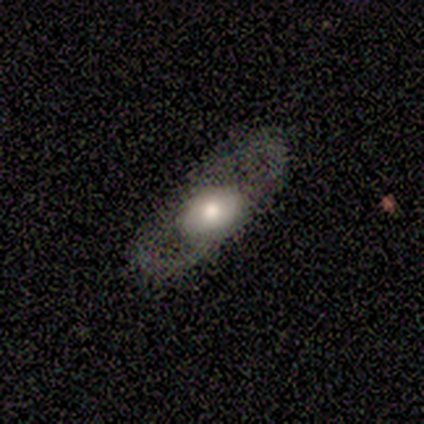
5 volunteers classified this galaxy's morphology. smooth 40% (tied), featured or disk 40% (tied), star or artifact 20%. Down the decision tree: how rounded — round (50%, tied with in between); merging — none (75%).